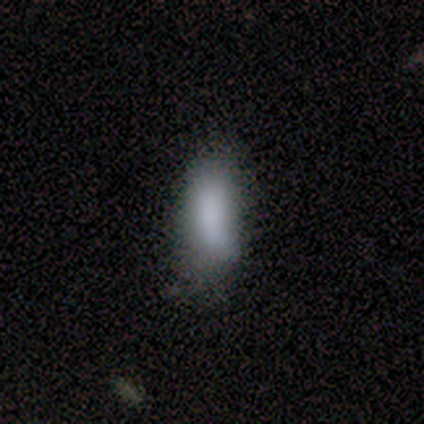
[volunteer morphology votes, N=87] Q: Smooth or featured?
A: smooth (85%); runner-up: featured or disk (9%)
Q: How rounded?
A: in between (76%); runner-up: cigar-shaped (24%)
Q: Merging?
A: none (62%); runner-up: minor disturbance (26%)